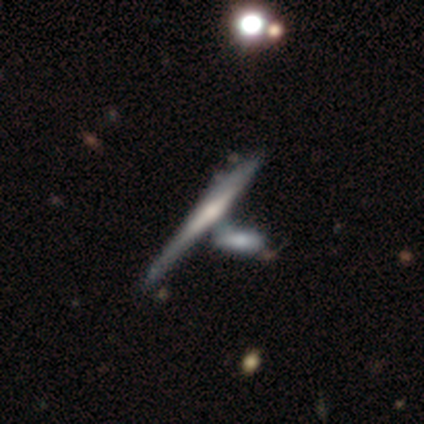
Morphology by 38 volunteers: Volunteers were most divided on "edge-on bulge": none: 46%, rounded: 38%, boxy: 17%. More confident: edge-on disk — yes (96%); smooth or featured — featured or disk (66%); merging — merger (51%).